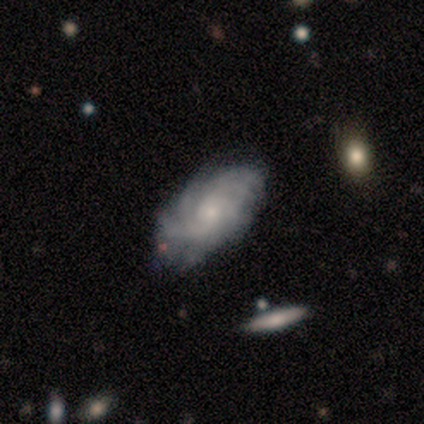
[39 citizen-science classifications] Overall: featured or disk (95%). Edge-on disk: no (97%). Bar: no (75%). Spiral arms: yes (92%). Spiral arm count: 4 (36%; more than 4 24%). Spiral winding: tight (67%; medium 30%). Bulge size: small (69%). Merging: none (54%; minor disturbance 21%).